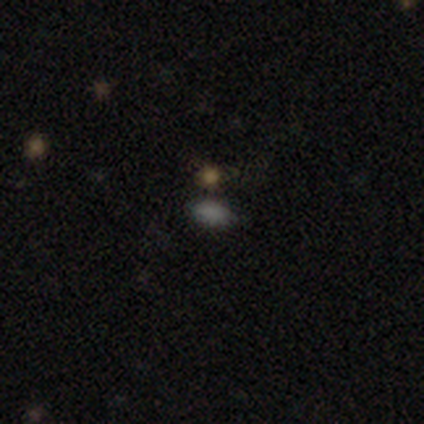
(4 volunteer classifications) Smooth or featured?
  - smooth: 75% *
  - featured or disk: 25%
  - star or artifact: 0%
How rounded?
  - in between: 100% *
  - round: 0%
  - cigar-shaped: 0%
Merging?
  - none: 100% *
  - minor disturbance: 0%
  - major disturbance: 0%
  - merger: 0%